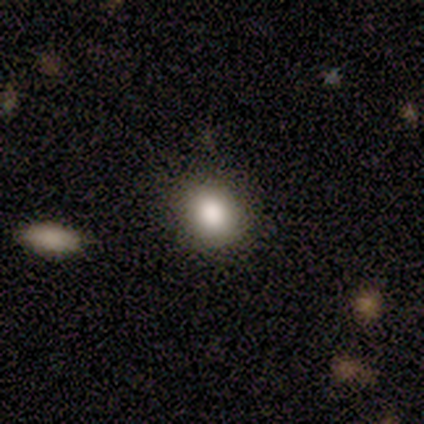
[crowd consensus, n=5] This appears to be a smooth galaxy with no disk features (60%) that is round (67%). Merging: minor disturbance (75%).